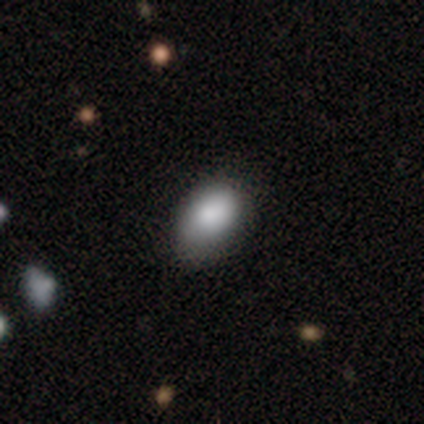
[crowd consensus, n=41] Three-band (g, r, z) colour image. It shows a smooth galaxy with no disk features (93%) that is in between round and cigar-shaped (95%). Merging: none (64%).